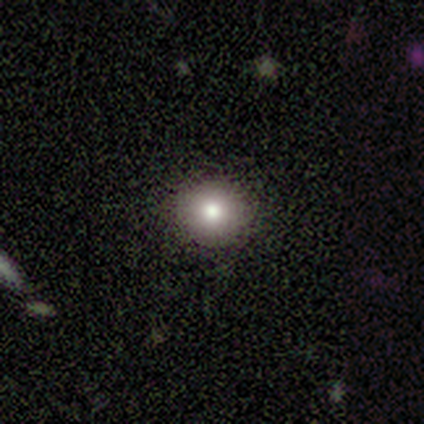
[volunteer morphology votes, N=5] A smooth galaxy with no disk features (60%) that is round (67%). Merging: none (75%).